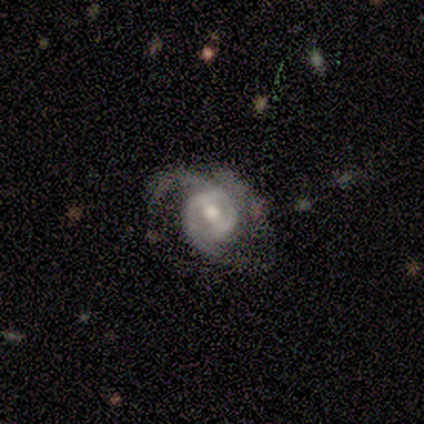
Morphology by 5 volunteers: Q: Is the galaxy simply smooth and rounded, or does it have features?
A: featured or disk — 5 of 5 (100%).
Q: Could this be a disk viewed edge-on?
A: no — 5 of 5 (100%).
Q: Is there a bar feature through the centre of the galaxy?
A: weak — 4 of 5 (80%).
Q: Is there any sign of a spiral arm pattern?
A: yes — 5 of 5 (100%).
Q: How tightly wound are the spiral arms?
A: tight — 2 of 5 (40%, tied with medium).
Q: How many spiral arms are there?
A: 2 — 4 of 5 (80%).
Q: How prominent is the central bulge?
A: moderate — 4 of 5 (80%).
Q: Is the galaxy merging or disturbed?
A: none — 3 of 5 (60%).